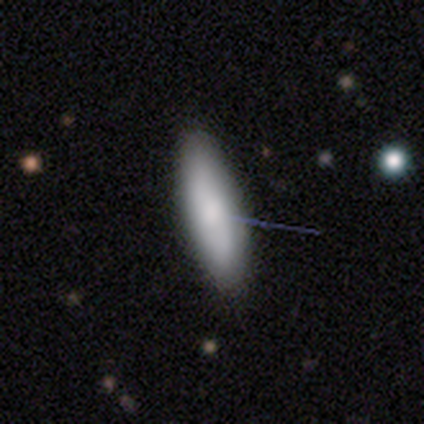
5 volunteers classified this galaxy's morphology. This is clearly a smooth galaxy (100%). How rounded: clearly in between (80%). Merging: clearly none (100%).